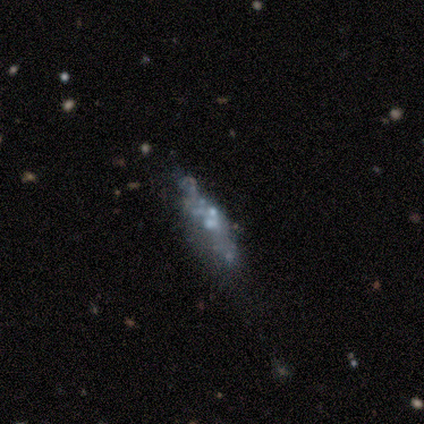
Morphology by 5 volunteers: Volunteers were most divided on "bulge size" (3-way tie): dominant: 33%, small: 33%, none: 33%, large: 0%, moderate: 0%. More confident: edge-on disk — no (100%); bar — no (100%); spiral arms — no (100%); merging — none (75%); smooth or featured — featured or disk (60%).